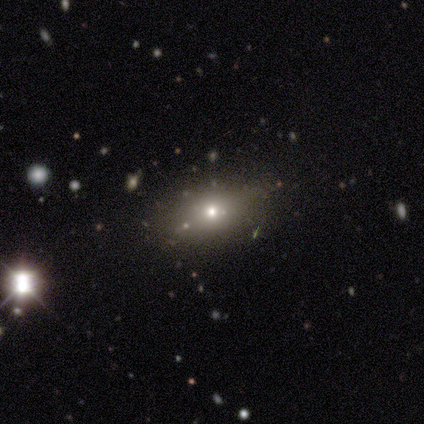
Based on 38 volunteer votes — Volunteers were most divided on "how rounded": in between: 65%, cigar-shaped: 27%, round: 8%. More confident: merging — none (90%); smooth or featured — smooth (68%).